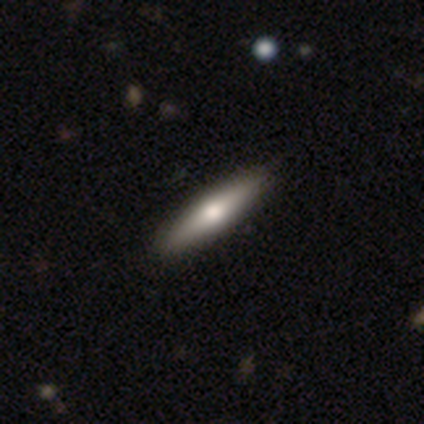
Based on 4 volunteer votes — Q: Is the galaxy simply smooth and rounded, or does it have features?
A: smooth — 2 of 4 (50%, tied with featured or disk).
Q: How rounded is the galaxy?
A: in between — 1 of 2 (50%, tied with cigar-shaped).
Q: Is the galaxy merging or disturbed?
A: none — 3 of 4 (75%).